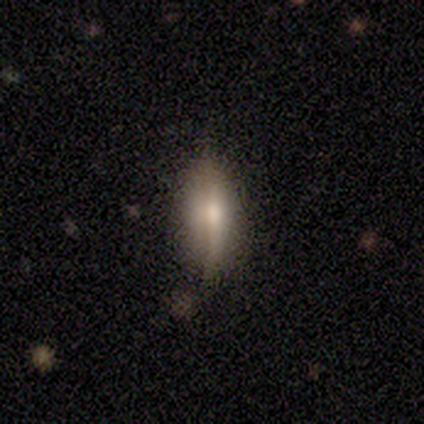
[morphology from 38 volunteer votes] Smooth or featured?
  - featured or disk: 47% *
  - smooth: 42%
  - star or artifact: 11%
Edge-on disk?
  - yes: 72% *
  - no: 28%
Edge-on bulge?
  - rounded: 69% *
  - boxy: 23%
  - none: 8%
Merging?
  - none: 62% *
  - minor disturbance: 29%
  - merger: 6%
  - major disturbance: 3%